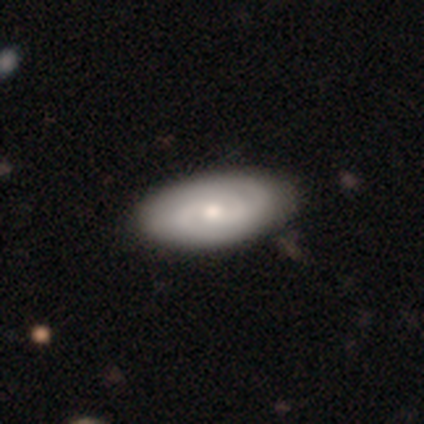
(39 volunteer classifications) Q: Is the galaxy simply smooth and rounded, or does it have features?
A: featured or disk — 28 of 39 (72%).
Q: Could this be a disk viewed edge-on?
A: no — 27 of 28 (96%).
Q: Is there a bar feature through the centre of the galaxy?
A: no — 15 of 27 (56%).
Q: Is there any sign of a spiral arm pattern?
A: yes — 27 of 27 (100%).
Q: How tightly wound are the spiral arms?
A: tight — 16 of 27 (59%).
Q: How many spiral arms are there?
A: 2 — 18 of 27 (67%).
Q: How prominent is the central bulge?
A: moderate — 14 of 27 (52%).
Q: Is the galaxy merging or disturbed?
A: none — 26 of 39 (67%).